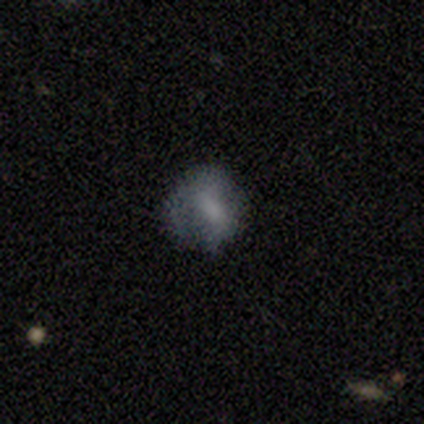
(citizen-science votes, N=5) A smooth galaxy with no disk features (60%) that is round (100%). Merging: none (40%, tied with minor disturbance).